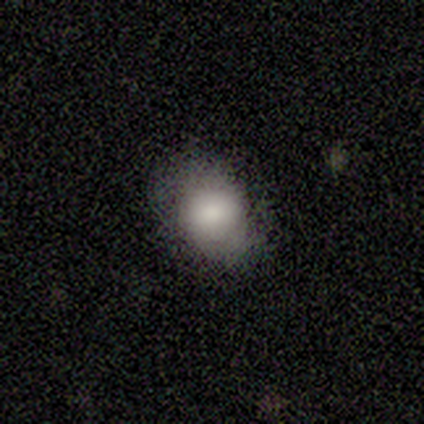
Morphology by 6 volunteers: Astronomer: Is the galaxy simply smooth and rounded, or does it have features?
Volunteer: smooth — 100%.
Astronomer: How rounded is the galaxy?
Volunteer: in between — 83%.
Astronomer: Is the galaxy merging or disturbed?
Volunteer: none — 67%.